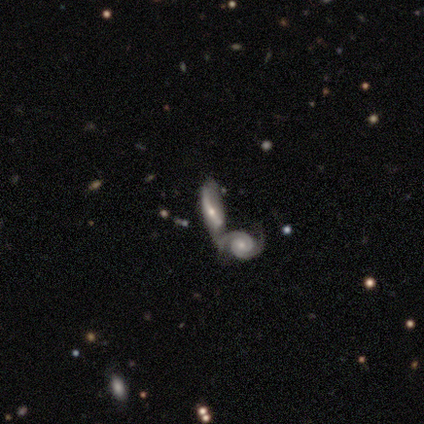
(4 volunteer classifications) A smooth galaxy with no disk features (50%, tied with featured or disk) that is in between round and cigar-shaped (50%, tied with cigar-shaped). Merging: merger (75%).